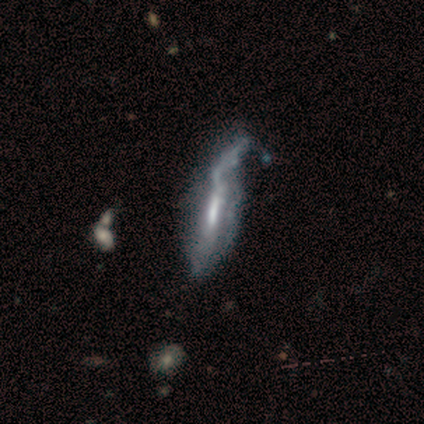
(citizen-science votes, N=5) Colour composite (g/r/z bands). It shows a featured or disk galaxy (100%) with a strong bar (50%, tied with weak), no spiral arms (100%) and a moderate central bulge (75%). Merging: merger (40%).